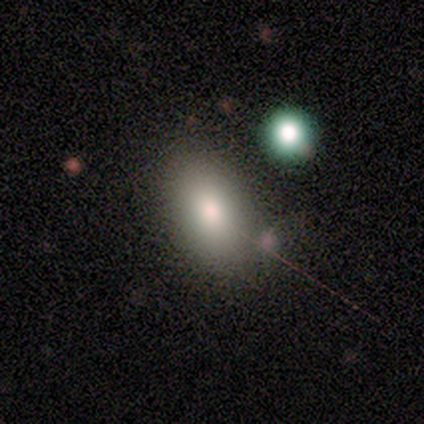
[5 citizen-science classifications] This is clearly a smooth galaxy (100%). How rounded: likely in between (60%). Merging: clearly none (100%).